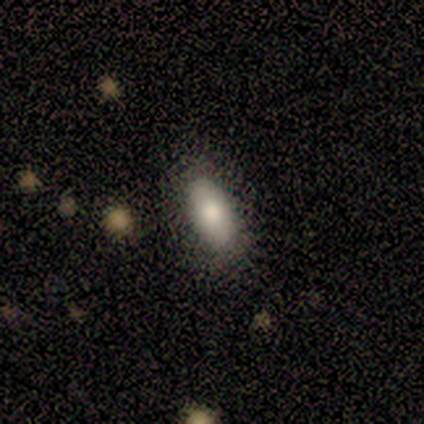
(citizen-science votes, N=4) Q: Smooth or featured?
A: smooth (100%)
Q: How rounded?
A: in between (75%); runner-up: cigar-shaped (25%)
Q: Merging?
A: none (75%); runner-up: minor disturbance (25%)